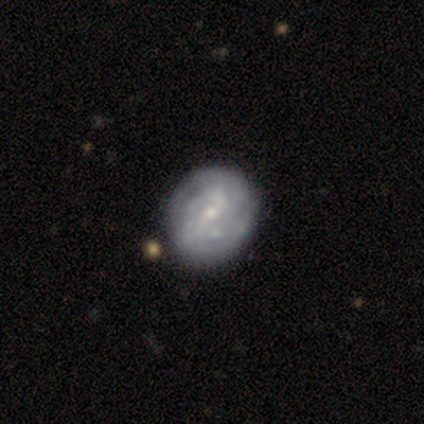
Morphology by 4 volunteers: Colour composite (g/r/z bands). It shows a featured or disk galaxy (100%) with a weak bar (50%, tied with no), 2 (67%) tight (100%) spiral arms (75%) and a small central bulge (100%). Merging: none (100%).